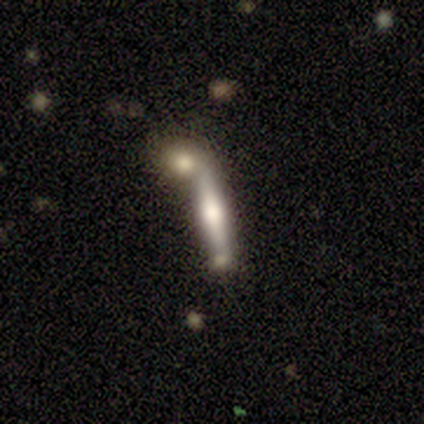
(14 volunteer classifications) Overall: featured or disk (50%; smooth 43%). Edge-on disk: yes (100%). Edge-on bulge: rounded (86%). Merging: none (38%, tied with merger).